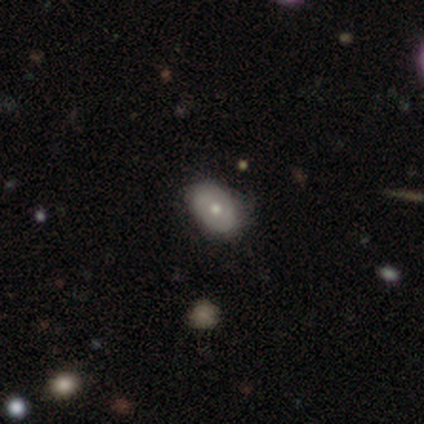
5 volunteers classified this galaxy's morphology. This appears to be a smooth galaxy with no disk features (60%) that is in between round and cigar-shaped (100%). Merging: none (100%).